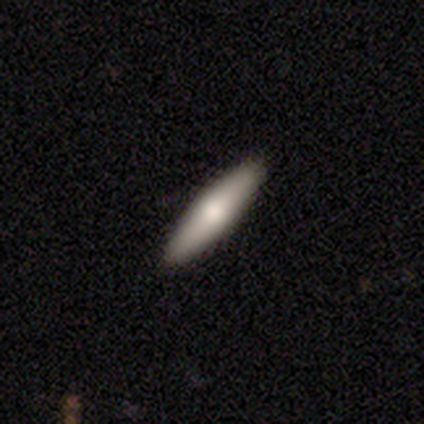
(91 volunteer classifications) Volunteers were most divided on "smooth or featured": smooth: 63%, featured or disk: 32%, star or artifact: 5%. More confident: merging — none (87%); how rounded — cigar-shaped (79%).